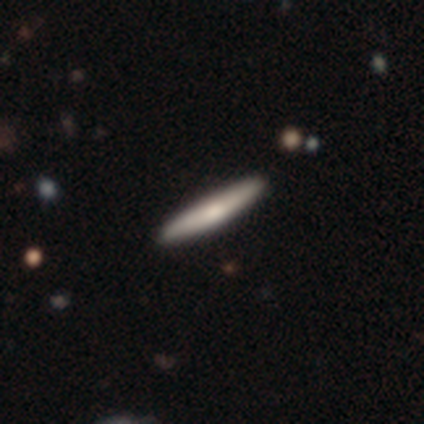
A smooth galaxy with no disk features (60%) that is cigar-shaped (100%). Merging: none (100%).